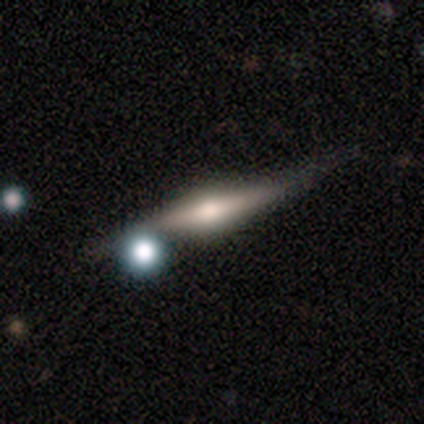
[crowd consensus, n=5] This is clearly a featured or disk galaxy (80%). It is clearly viewed edge-on (100%). Edge-on bulge: possibly rounded (50%). Merging: possibly none (50%).